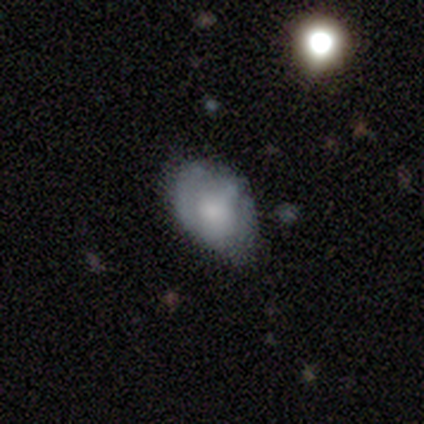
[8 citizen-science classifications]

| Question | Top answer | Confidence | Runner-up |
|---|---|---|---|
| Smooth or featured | featured or disk | 88% | smooth (12%) |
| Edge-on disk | no | 100% | — |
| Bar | no | 100% | — |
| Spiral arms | no | 100% | — |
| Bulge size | large | 43% | moderate (29%) |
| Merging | minor disturbance | 62% | none (25%) |